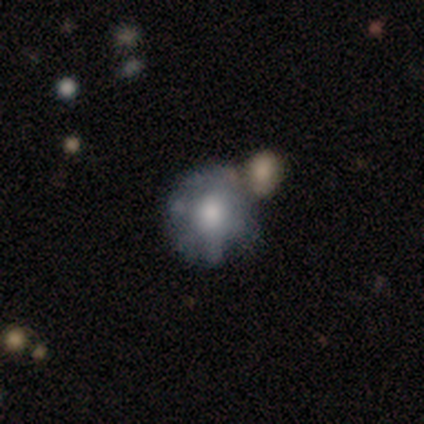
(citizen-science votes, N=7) Q: Smooth or featured?
A: featured or disk (86%); runner-up: smooth (14%)
Q: Edge-on disk?
A: no (100%)
Q: Bar?
A: no (100%)
Q: Spiral arms?
A: no (67%); runner-up: yes (33%)
Q: Bulge size?
A: moderate (67%); runner-up: large (17%)
Q: Merging?
A: none (57%); runner-up: minor disturbance (29%)